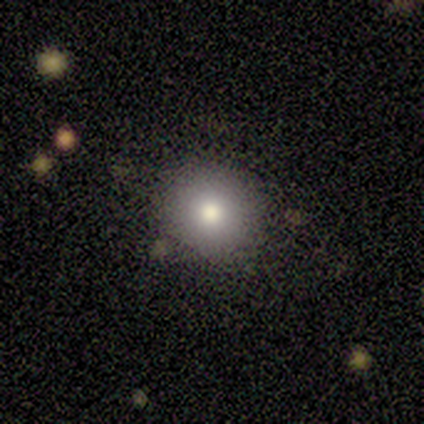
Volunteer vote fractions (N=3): Overall: smooth (67%; featured or disk 33%). How rounded: round (100%). Merging: none (100%).